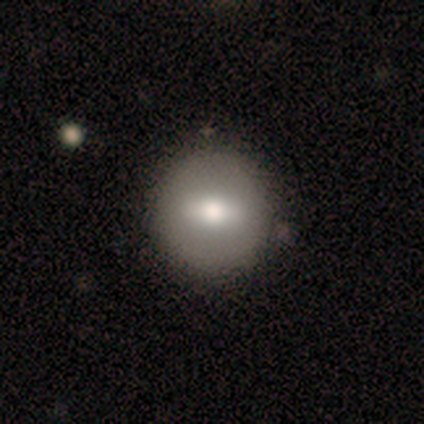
A smooth galaxy with no disk features (59%) that is round (78%).

Vote fractions:
- Smooth or featured? smooth: 59% / featured or disk: 33% / star or artifact: 8%
- How rounded? round: 78% / in between: 22% / cigar-shaped: 0%
- Merging? none: 72% / minor disturbance: 3% / merger: 3% / major disturbance: 0%